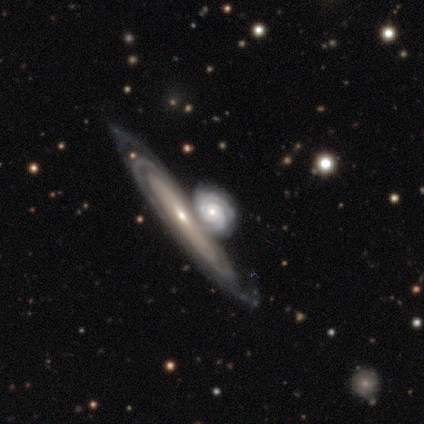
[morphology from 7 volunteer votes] featured or disk 86%, smooth 14%, star or artifact 0%. Down the decision tree: edge-on disk — no (100%); bar — no (67%); spiral arms — yes (100%); spiral arm count — 2 (83%); spiral winding — tight (83%); bulge size — small (67%); merging — minor disturbance (43%).